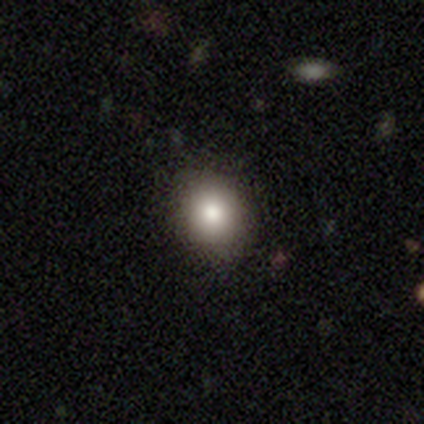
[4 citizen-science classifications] smooth_or_featured: smooth (p=0.50) [alt: featured or disk p=0.25]
how_rounded: round (p=1.00)
merging: none (p=1.00)